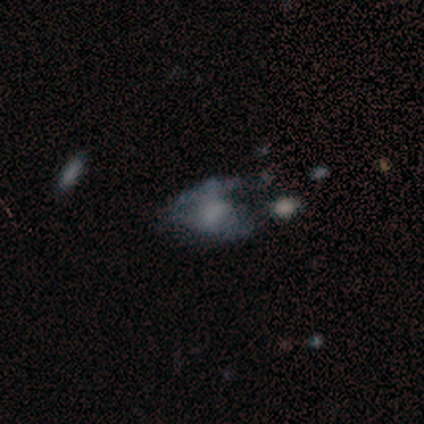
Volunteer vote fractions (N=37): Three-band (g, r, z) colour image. It shows a featured or disk galaxy (43%) with no bar (81%), no spiral arms (81%) and a small central bulge (38%). Merging: major disturbance (55%).